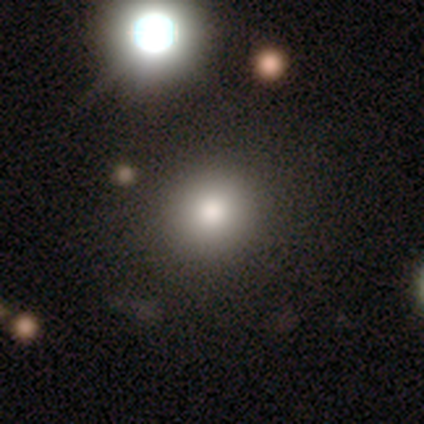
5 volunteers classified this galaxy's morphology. Smooth or featured?
  - smooth: 100% *
  - featured or disk: 0%
  - star or artifact: 0%
How rounded?
  - round: 80% *
  - in between: 20%
  - cigar-shaped: 0%
Merging?
  - none: 100% *
  - minor disturbance: 0%
  - major disturbance: 0%
  - merger: 0%